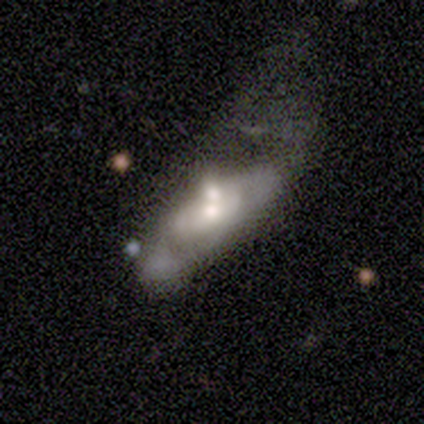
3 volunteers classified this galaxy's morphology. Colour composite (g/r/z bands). It shows a featured or disk galaxy (67%) viewed edge-on (50%, tied with no) with a rounded central bulge (100%). Merging: merger (67%).